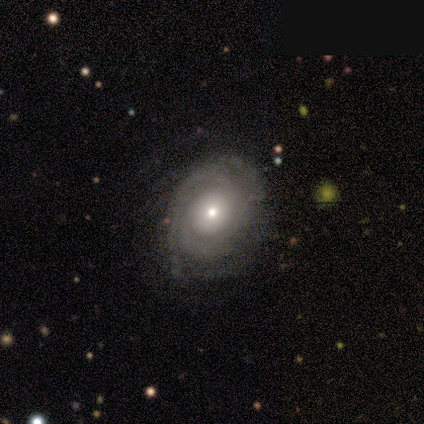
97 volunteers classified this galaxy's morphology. type=featured or disk (78%); edge-on=no (97%); bar=no (92%); spiral arms=yes (86%); winding=tight (72%); arm count=2 (28%); bulge=moderate (59%); merging=none (65%).